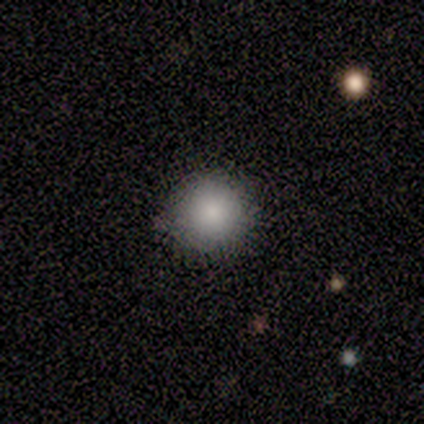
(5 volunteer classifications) This is clearly a smooth galaxy (100%). How rounded: clearly round (100%). Merging: clearly none (100%).